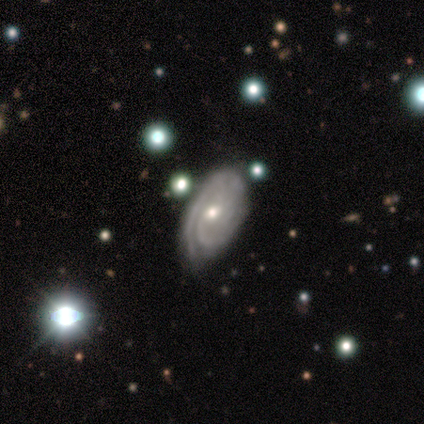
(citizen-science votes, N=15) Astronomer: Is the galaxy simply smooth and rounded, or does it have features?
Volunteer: featured or disk — 87%.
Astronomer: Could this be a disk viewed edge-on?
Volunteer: no — 100%.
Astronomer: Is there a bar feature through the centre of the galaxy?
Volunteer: no — 77%.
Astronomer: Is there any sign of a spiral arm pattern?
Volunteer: yes — 92%.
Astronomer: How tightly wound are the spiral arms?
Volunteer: tight — 75%.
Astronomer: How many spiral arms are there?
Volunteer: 2 — 33%, tied with can't tell at 33%.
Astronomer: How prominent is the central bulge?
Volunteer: small — 62%.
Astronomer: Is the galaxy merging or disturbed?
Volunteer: none — 40%.